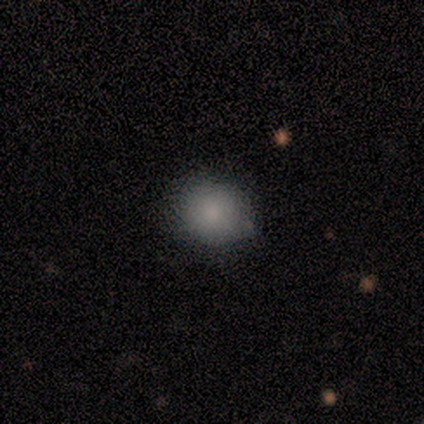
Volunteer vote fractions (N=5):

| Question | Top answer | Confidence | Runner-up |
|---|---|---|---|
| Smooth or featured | smooth | 80% | featured or disk (20%) |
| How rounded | round | 75% | in between (25%) |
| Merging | none | 100% | — |